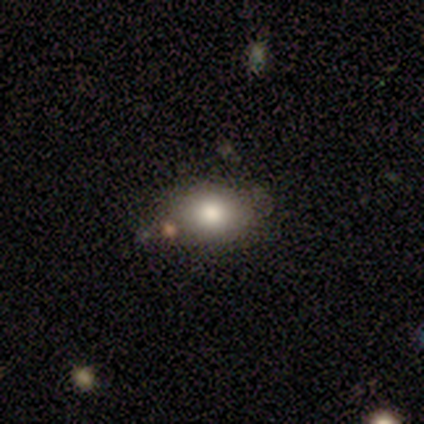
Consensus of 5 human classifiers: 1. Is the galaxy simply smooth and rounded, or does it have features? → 80% smooth, 20% featured or disk, 0% star or artifact.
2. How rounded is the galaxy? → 50% round (tied), 50% in between (tied), 0% cigar-shaped.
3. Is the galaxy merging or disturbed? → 60% none, 40% minor disturbance, 0% major disturbance, 0% merger.